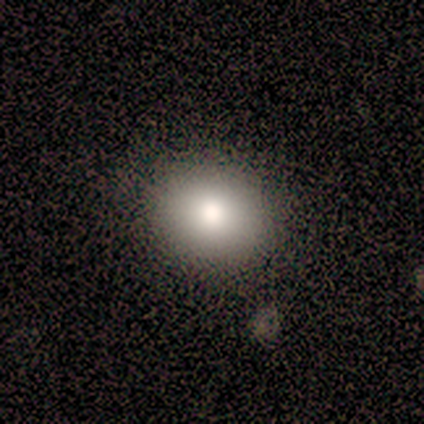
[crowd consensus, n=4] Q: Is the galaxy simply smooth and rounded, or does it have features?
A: smooth — 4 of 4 (100%).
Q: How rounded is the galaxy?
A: round — 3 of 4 (75%).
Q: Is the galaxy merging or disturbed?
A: none — 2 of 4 (50%).